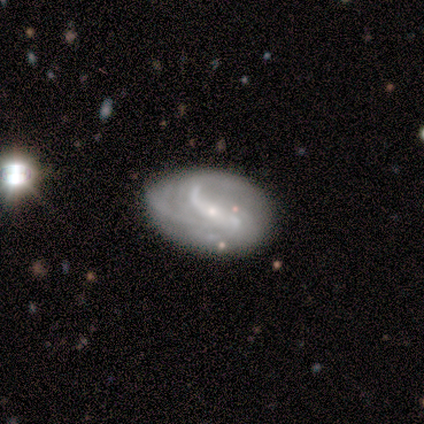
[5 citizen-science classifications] Smooth or featured: featured or disk — 80% (smooth — 20%)
Edge-on disk: no — 100%
Bar: strong — 100%
Spiral arms: yes — 75% (no — 25%)
Spiral winding: loose — 67% (medium — 33%)
Spiral arm count: 2 — 100%
Bulge size: small — 75% (moderate — 25%)
Merging: none — 100%